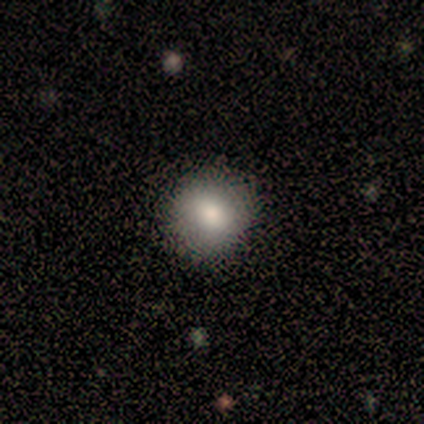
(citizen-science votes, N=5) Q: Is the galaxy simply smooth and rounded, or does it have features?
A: smooth — 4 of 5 (80%).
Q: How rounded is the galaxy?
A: round — 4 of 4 (100%).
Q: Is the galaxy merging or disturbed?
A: none — 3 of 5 (60%).